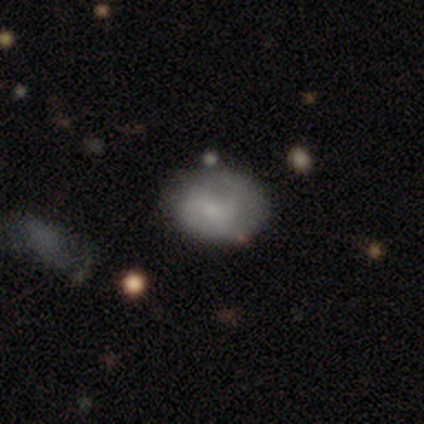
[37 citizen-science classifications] This appears to be a smooth galaxy with no disk features (73%) that is in between round and cigar-shaped (67%). Merging: none (76%).